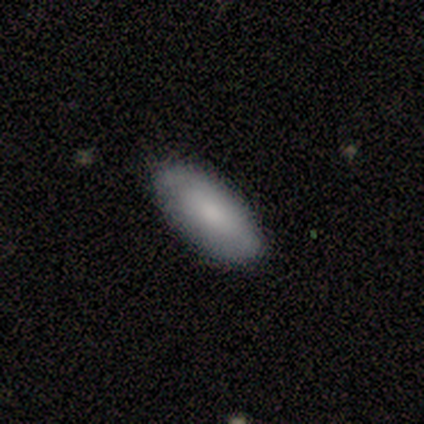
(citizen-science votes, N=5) Smooth or featured: smooth — 80% (star or artifact — 20%)
How rounded: in between — 100%
Merging: none — 75% (minor disturbance — 25%)